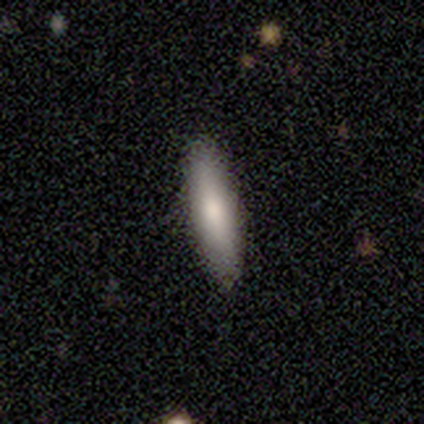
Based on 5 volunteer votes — Smooth or featured? smooth (100%)
How rounded? in between (60%)
Merging? none (80%)